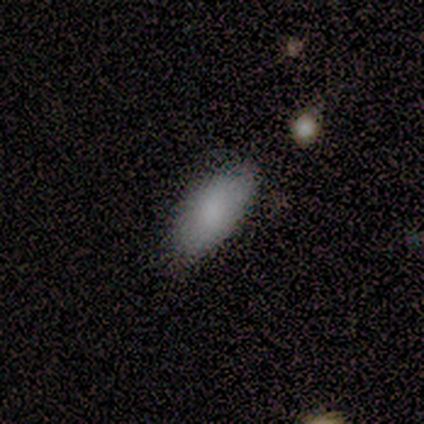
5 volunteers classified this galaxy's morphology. smooth-or-featured: smooth: 100% | featured or disk: 0% | star or artifact: 0%
  how-rounded: in between: 100% | round: 0% | cigar-shaped: 0%
  merging: none: 100% | minor disturbance: 0% | major disturbance: 0% | merger: 0%